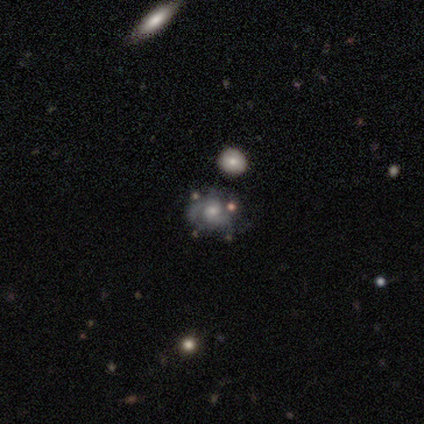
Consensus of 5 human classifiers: Morphology: type=featured or disk (100%); edge-on=no (100%); bar=no (80%); spiral arms=yes (80%); winding=tight (100%); arm count=2 (75%); bulge=moderate (80%); merging=minor disturbance (60%).